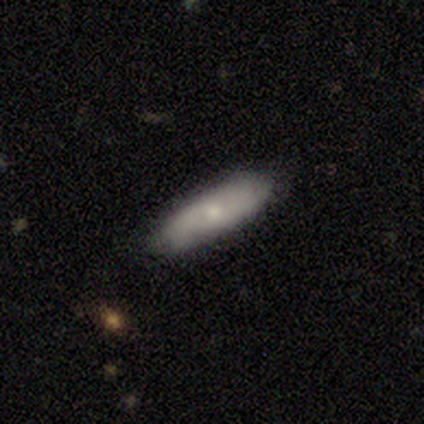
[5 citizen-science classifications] A featured or disk galaxy (60%) viewed edge-on (67%) with a rounded central bulge (100%). Merging: none (80%).